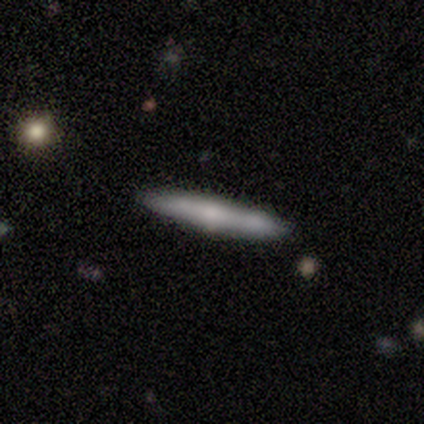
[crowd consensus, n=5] Morphology: type=featured or disk (60%); edge-on=yes (100%); edge-on bulge=rounded (100%); merging=none (80%).